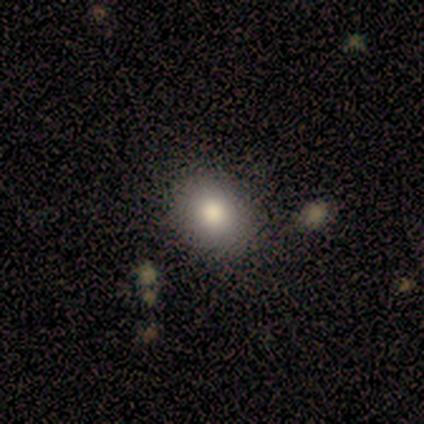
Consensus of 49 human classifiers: Smooth or featured?
  - smooth: 82% *
  - featured or disk: 12%
  - star or artifact: 6%
How rounded?
  - in between: 52% *
  - round: 48%
  - cigar-shaped: 0%
Merging?
  - none: 89% *
  - minor disturbance: 7%
  - merger: 4%
  - major disturbance: 0%